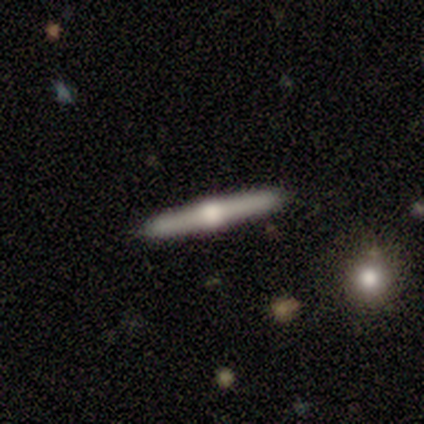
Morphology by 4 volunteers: smooth-or-featured: featured or disk: 100% | smooth: 0% | star or artifact: 0%
  disk-edge-on: yes: 100% | no: 0%
    edge-on-bulge: rounded: 100% | boxy: 0% | none: 0%
  merging: none: 100% | minor disturbance: 0% | major disturbance: 0% | merger: 0%